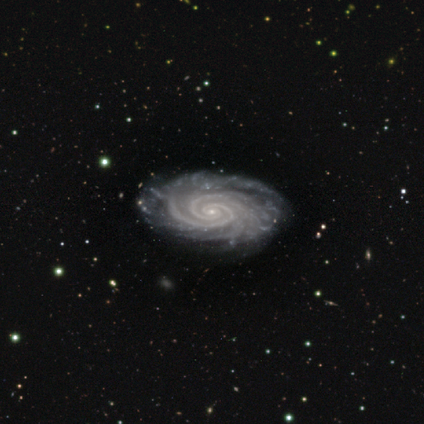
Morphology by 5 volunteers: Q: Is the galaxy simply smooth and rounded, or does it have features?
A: featured or disk — 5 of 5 (100%).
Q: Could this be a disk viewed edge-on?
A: no — 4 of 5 (80%).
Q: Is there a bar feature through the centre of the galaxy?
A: no — 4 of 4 (100%).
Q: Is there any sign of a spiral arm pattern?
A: yes — 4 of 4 (100%).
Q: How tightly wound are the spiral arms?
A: tight — 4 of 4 (100%).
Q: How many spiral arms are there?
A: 2 — 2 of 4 (50%).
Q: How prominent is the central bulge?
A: small — 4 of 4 (100%).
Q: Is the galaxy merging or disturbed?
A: none — 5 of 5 (100%).